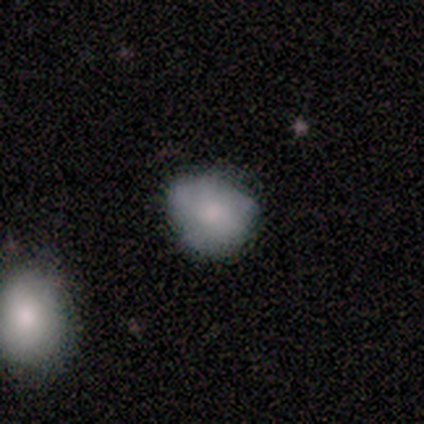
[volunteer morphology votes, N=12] This is clearly a smooth galaxy (83%). How rounded: likely round (60%). Merging: likely none (75%).